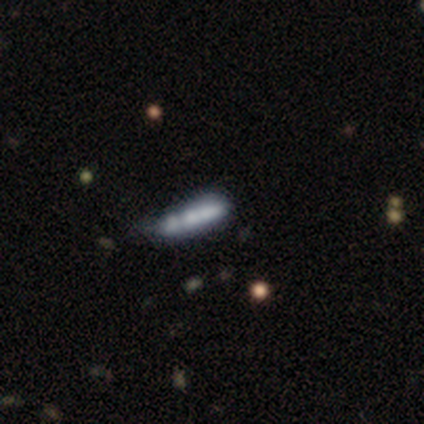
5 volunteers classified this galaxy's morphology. A smooth galaxy with no disk features (80%) that is cigar-shaped (75%). Merging: none (60%).